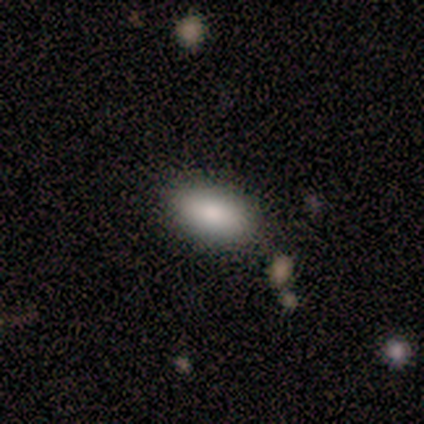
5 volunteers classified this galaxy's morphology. Smooth or featured: smooth — 100%
How rounded: in between — 100%
Merging: none — 80% (minor disturbance — 20%)